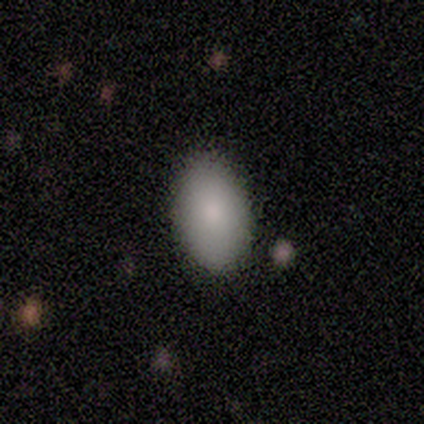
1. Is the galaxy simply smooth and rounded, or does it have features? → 100% smooth, 0% featured or disk, 0% star or artifact.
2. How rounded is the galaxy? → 100% in between, 0% round, 0% cigar-shaped.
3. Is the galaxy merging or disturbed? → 83% none, 17% minor disturbance, 0% major disturbance, 0% merger.